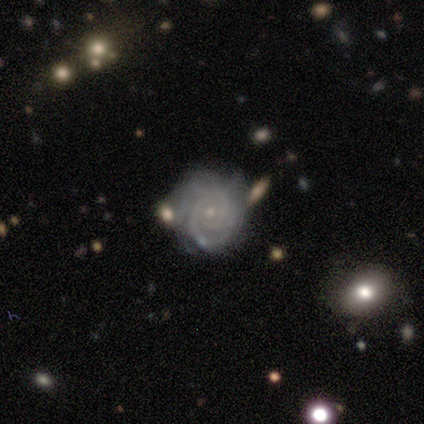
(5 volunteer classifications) Morphology: type=featured or disk (80%); edge-on=no (100%); bar=no (75%); spiral arms=yes (100%); winding=tight (75%); arm count=can't tell (50%); bulge=small (100%); merging=none (100%).